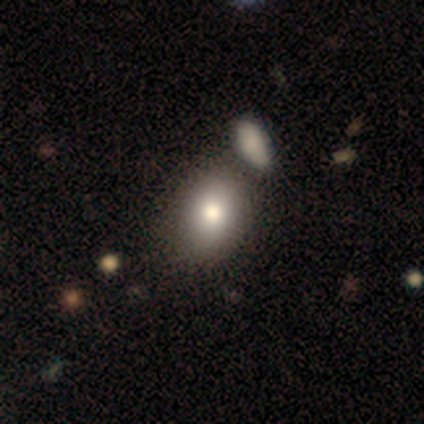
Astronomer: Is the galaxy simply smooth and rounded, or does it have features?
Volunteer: smooth — 80%.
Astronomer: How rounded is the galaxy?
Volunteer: in between — 75%.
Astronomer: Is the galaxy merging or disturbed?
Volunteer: merger — 75%.